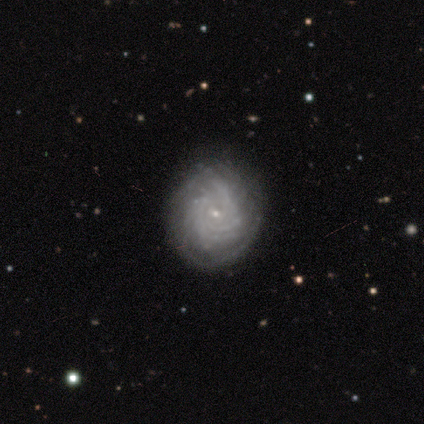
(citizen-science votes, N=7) This is clearly a featured or disk galaxy (100%). It is clearly not viewed edge-on (100%). Bar: likely no (71%). Spiral arm pattern: clearly yes (100%). Spiral arm count: likely can't tell (71%). Spiral winding: likely tight (71%). Central bulge: clearly small (100%). Merging: clearly none (86%).